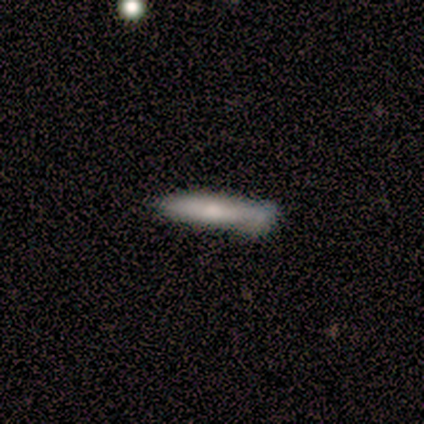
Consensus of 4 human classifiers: smooth-or-featured: smooth: 75% | featured or disk: 25% | star or artifact: 0%
  how-rounded: cigar-shaped: 100% | round: 0% | in between: 0%
  merging: none: 50% | major disturbance: 25% | merger: 25% | minor disturbance: 0%